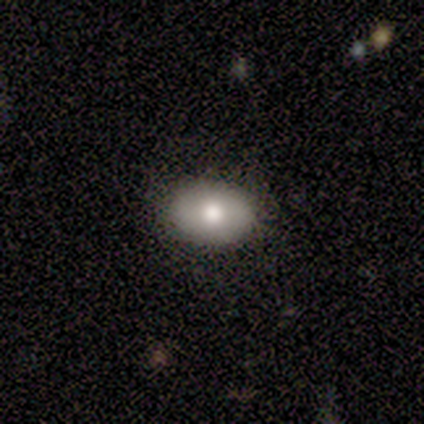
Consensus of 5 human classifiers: Overall: smooth (80%). How rounded: in between (100%). Merging: none (60%; minor disturbance 40%).